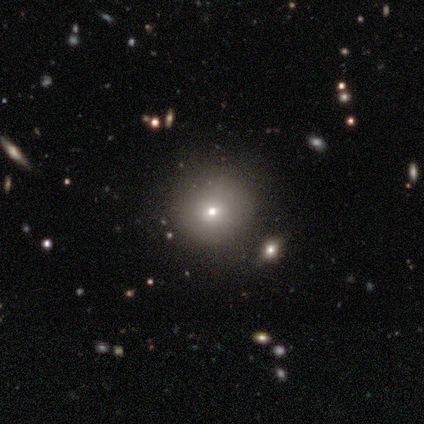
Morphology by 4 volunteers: type=smooth (75%); roundness=round (100%); merging=none (100%).